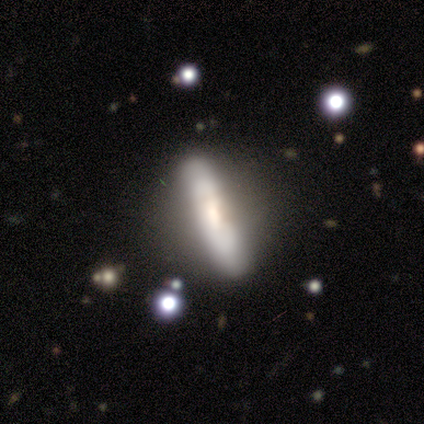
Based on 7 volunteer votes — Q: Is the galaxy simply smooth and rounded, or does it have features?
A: featured or disk — 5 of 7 (71%).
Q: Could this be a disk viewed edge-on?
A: yes — 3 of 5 (60%).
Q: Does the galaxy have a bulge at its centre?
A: none — 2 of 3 (67%).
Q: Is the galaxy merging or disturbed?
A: none — 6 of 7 (86%).